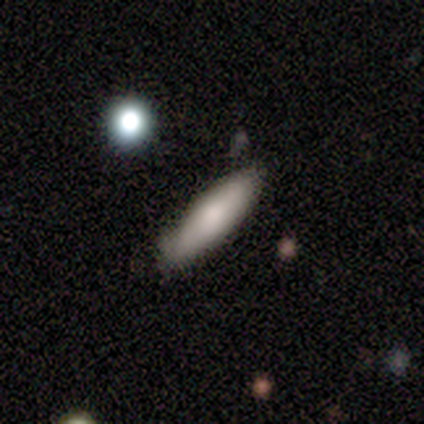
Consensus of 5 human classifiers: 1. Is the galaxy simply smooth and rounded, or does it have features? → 80% smooth, 20% featured or disk, 0% star or artifact.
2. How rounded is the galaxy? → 75% cigar-shaped, 25% in between, 0% round.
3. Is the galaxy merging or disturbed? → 60% none, 20% minor disturbance, 20% major disturbance, 0% merger.